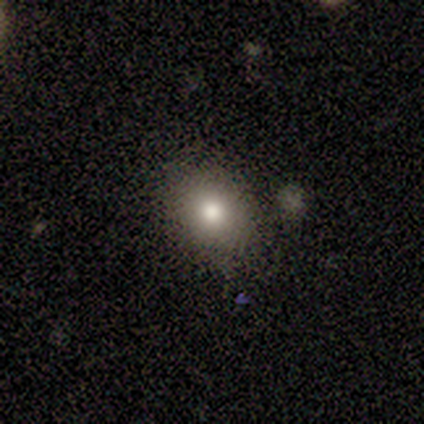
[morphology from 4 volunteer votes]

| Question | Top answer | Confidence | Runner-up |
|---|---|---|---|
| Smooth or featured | smooth | 50% | tied: featured or disk (50%) |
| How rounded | round | 50% | tied: in between (50%) |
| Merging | none | 100% | — |